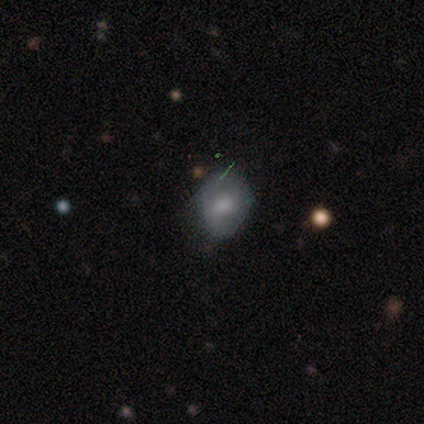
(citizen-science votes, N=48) smooth 56%, featured or disk 33%, star or artifact 10%. Down the decision tree: how rounded — in between (63%); merging — none (60%).